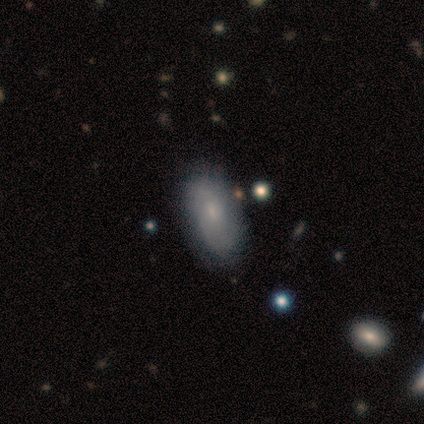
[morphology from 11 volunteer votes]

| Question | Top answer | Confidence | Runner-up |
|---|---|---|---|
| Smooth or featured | smooth | 55% | featured or disk (27%) |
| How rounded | in between | 100% | — |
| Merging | none | 100% | — |